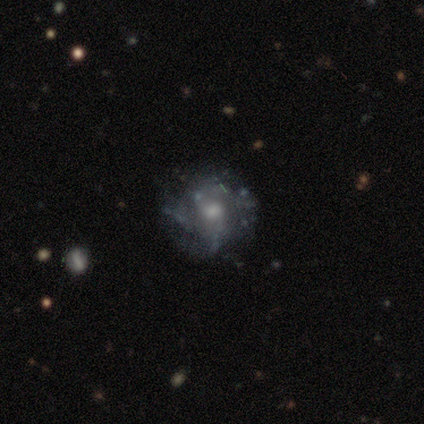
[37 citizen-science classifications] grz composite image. It shows a featured or disk galaxy (81%) with no bar (67%), medium (45%) spiral arms (73%) and a moderate central bulge (47%). Merging: none (82%).